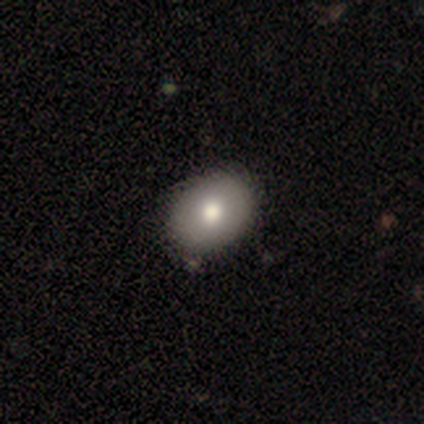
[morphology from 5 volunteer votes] This is likely a featured or disk galaxy (60%). It is clearly not viewed edge-on (100%). Bar: clearly no (100%). Spiral arm pattern: clearly no (100%). Central bulge: likely moderate (67%). Merging: likely none (75%).